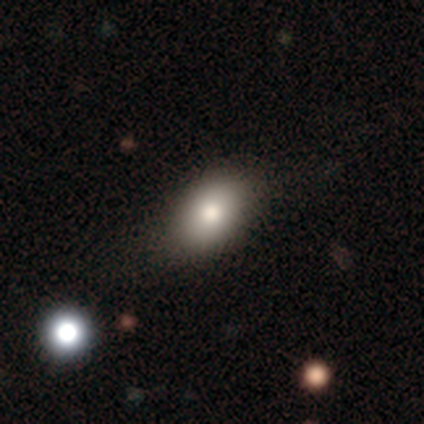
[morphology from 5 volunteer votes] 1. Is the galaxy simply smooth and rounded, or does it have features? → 100% smooth, 0% featured or disk, 0% star or artifact.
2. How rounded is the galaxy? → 100% in between, 0% round, 0% cigar-shaped.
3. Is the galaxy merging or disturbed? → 60% none, 20% minor disturbance, 20% major disturbance, 0% merger.